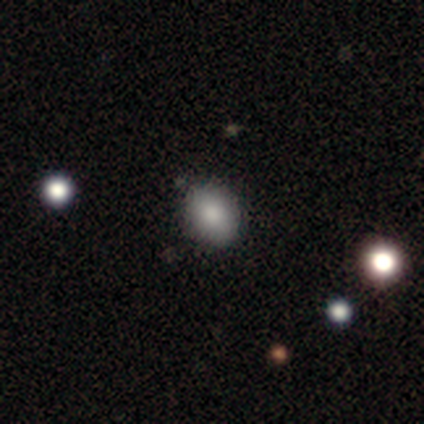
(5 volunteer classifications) A smooth galaxy with no disk features (60%) that is in between round and cigar-shaped (67%). Merging: none (100%).